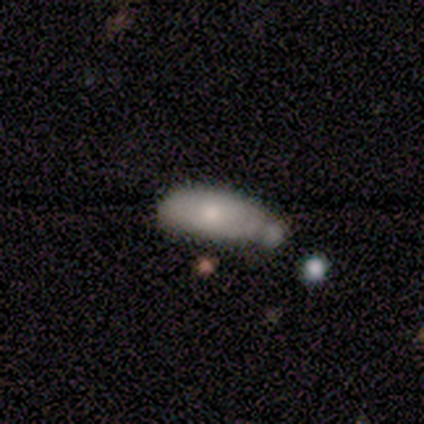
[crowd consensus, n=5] A smooth galaxy with no disk features (100%) that is in between round and cigar-shaped (100%). Merging: minor disturbance (60%).